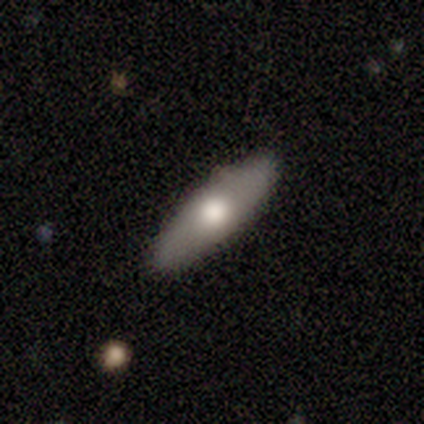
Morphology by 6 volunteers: A smooth galaxy with no disk features (50%, tied with featured or disk) that is in between round and cigar-shaped (67%).

Vote fractions:
- Smooth or featured? smooth: 50% (tied) / featured or disk: 50% (tied) / star or artifact: 0%
- How rounded? in between: 67% / cigar-shaped: 33% / round: 0%
- Merging? none: 100% / minor disturbance: 0% / major disturbance: 0% / merger: 0%